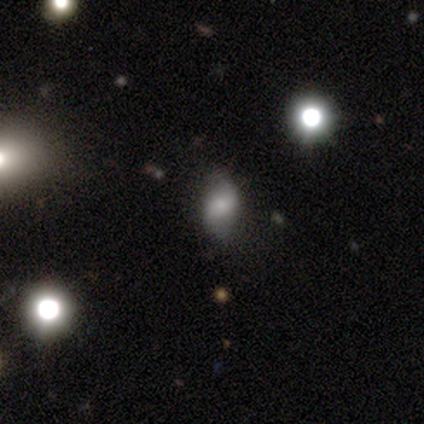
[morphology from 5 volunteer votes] Smooth or featured? 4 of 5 (80%) said smooth. How rounded? 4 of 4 (100%) said in between. Merging? 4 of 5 (80%) said none.